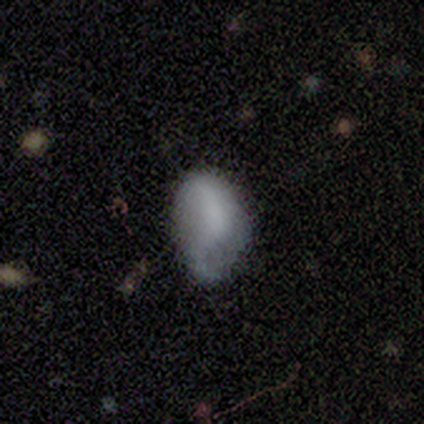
smooth-or-featured: smooth: 80% | featured or disk: 20% | star or artifact: 0%
  how-rounded: round: 50% (tied) | in between: 50% (tied) | cigar-shaped: 0%
  merging: none: 80% | minor disturbance: 20% | major disturbance: 0% | merger: 0%